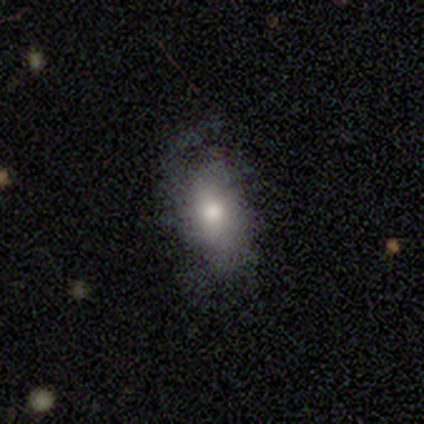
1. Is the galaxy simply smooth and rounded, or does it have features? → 68% smooth, 27% featured or disk, 5% star or artifact.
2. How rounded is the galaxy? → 88% in between, 8% cigar-shaped, 4% round.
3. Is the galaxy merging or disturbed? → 49% major disturbance, 43% none, 6% minor disturbance, 3% merger.